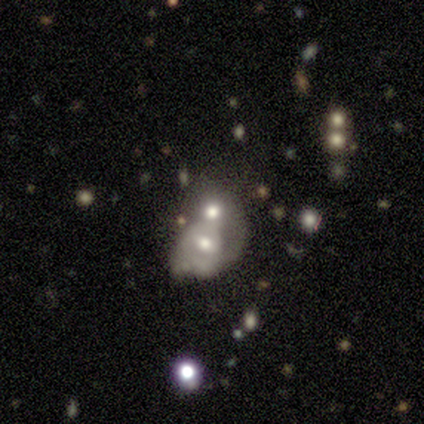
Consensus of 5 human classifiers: smooth-or-featured: featured or disk: 60% | smooth: 40% | star or artifact: 0%
  disk-edge-on: no: 100% | yes: 0%
    bar: no: 100% | strong: 0% | weak: 0%
    has-spiral-arms: no: 100% | yes: 0%
    bulge-size: moderate: 67% | small: 33% | dominant: 0% | large: 0% | none: 0%
  merging: merger: 80% | none: 20% | minor disturbance: 0% | major disturbance: 0%